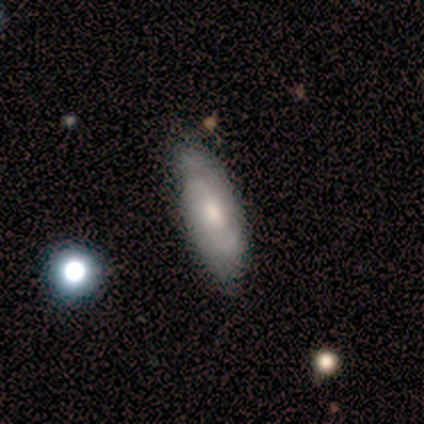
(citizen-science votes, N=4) This is possibly a smooth galaxy (50%). How rounded: possibly in between (50%, tied with cigar-shaped). Merging: likely none (67%).